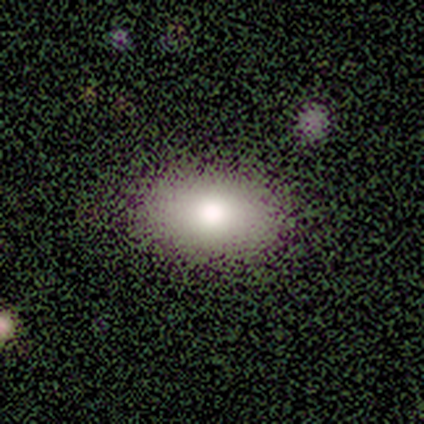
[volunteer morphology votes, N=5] Smooth or featured?
  - smooth: 80% *
  - featured or disk: 20%
  - star or artifact: 0%
How rounded?
  - in between: 75% *
  - cigar-shaped: 25%
  - round: 0%
Merging?
  - none: 80% *
  - minor disturbance: 20%
  - major disturbance: 0%
  - merger: 0%